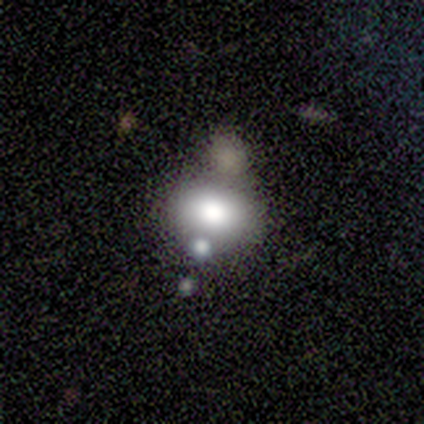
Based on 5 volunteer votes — Smooth or featured: smooth — 80% (featured or disk — 20%)
How rounded: in between — 100%
Merging: none — 60% (minor disturbance — 40%)